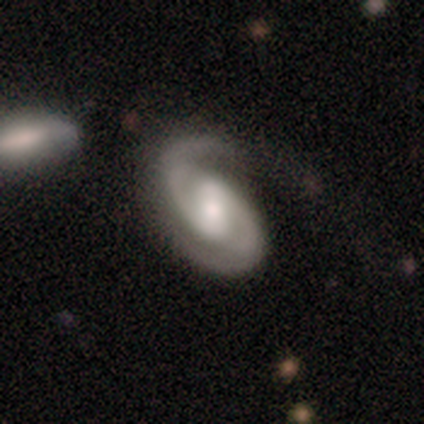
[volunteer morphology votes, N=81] Volunteers were most divided on "bar": strong: 41%, weak: 38%, no: 21%. Remaining: spiral arm count — 2 (99%); edge-on disk — no (97%); spiral arms — yes (97%); smooth or featured — featured or disk (90%); spiral winding — medium (68%); merging — none (51%); bulge size — moderate (46%).